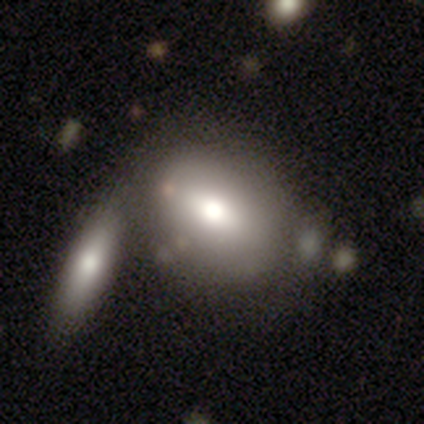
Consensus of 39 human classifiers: A smooth galaxy with no disk features (77%) that is in between round and cigar-shaped (60%). Merging: none (51%).